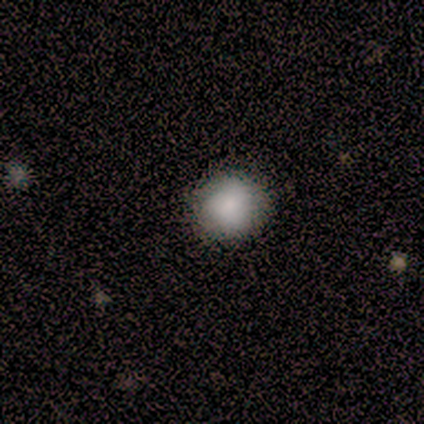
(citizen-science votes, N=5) Q: Smooth or featured?
A: smooth (80%); runner-up: featured or disk (20%)
Q: How rounded?
A: round (100%)
Q: Merging?
A: none (100%)